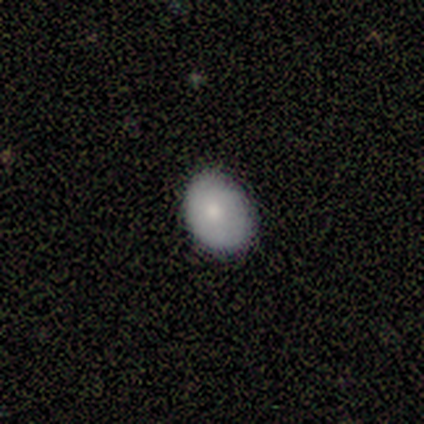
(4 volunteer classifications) This appears to be a smooth galaxy with no disk features (75%) that is in between round and cigar-shaped (100%). Merging: none (50%).